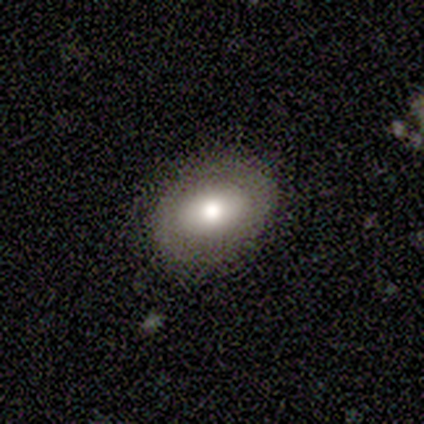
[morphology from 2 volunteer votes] Q: Smooth or featured?
A: smooth (50%); tied with: featured or disk (50%)
Q: How rounded?
A: in between (100%)
Q: Merging?
A: none (50%); tied with: minor disturbance (50%)